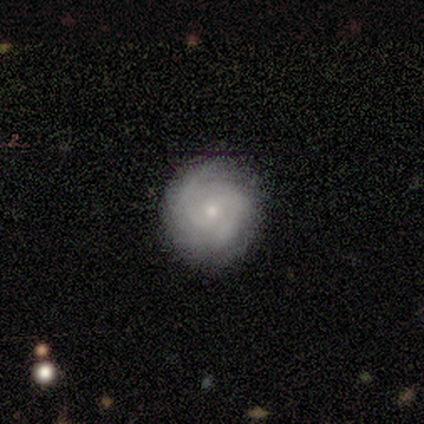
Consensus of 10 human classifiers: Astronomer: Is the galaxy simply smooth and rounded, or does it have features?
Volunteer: featured or disk — 70%.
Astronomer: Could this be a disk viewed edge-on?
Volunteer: no — 100%.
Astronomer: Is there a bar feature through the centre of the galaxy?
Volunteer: no — 100%.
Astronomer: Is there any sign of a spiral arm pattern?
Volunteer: yes — 100%.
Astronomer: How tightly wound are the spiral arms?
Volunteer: tight — 71%.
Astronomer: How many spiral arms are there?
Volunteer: can't tell — 43% (runner-up: 2, 29%).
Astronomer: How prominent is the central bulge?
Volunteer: small — 86%.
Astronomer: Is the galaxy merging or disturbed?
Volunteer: none — 78%.